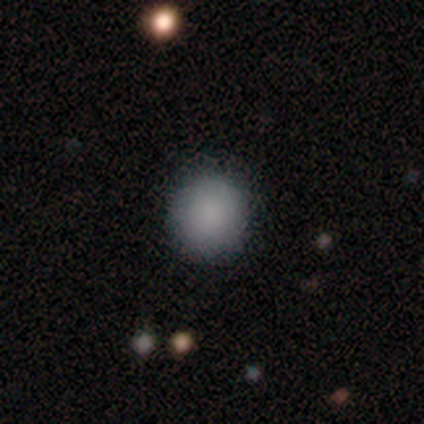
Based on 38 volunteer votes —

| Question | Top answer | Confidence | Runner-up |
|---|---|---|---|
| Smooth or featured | smooth | 92% | star or artifact (5%) |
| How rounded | round | 91% | in between (9%) |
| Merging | none | 83% | minor disturbance (17%) |